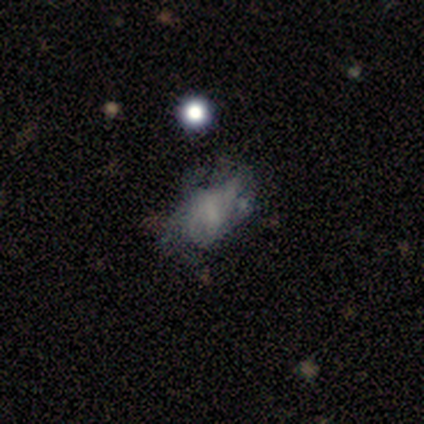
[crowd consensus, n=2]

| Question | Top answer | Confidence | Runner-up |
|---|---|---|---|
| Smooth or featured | smooth | 100% | — |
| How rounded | round | 50% | tied: in between (50%) |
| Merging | none | 50% | tied: major disturbance (50%) |